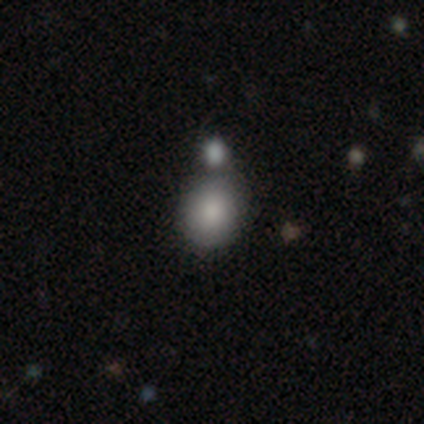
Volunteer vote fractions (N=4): This appears to be a smooth galaxy with no disk features (50%) that is round (100%). Merging: none (33%, tied with major disturbance and merger).